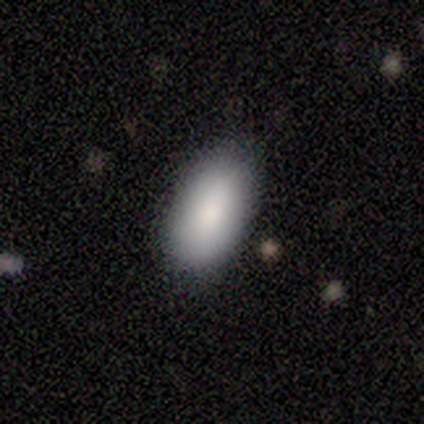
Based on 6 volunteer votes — smooth-or-featured: smooth: 100% | featured or disk: 0% | star or artifact: 0%
  how-rounded: in between: 100% | round: 0% | cigar-shaped: 0%
  merging: none: 83% | minor disturbance: 17% | major disturbance: 0% | merger: 0%